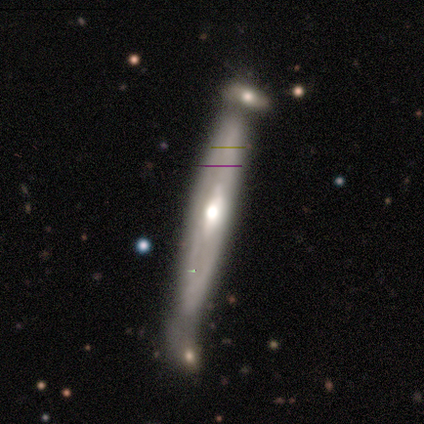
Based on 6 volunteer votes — Smooth or featured?
  - smooth: 50% * (tied)
  - featured or disk: 50% * (tied)
  - star or artifact: 0%
How rounded?
  - cigar-shaped: 100% *
  - round: 0%
  - in between: 0%
Merging?
  - none: 33% * (tied)
  - minor disturbance: 33% * (tied)
  - merger: 33% * (tied)
  - major disturbance: 0%